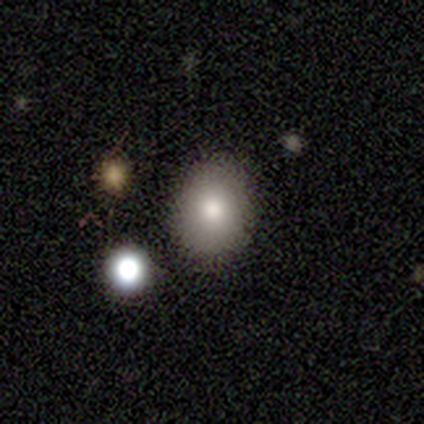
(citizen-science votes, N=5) smooth-or-featured: smooth: 100% | featured or disk: 0% | star or artifact: 0%
  how-rounded: in between: 60% | round: 40% | cigar-shaped: 0%
  merging: none: 100% | minor disturbance: 0% | major disturbance: 0% | merger: 0%